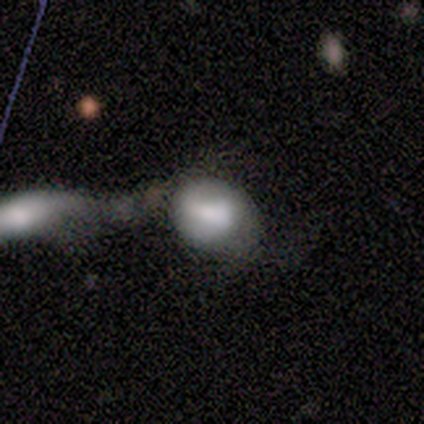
smooth 40% (tied), featured or disk 40% (tied), star or artifact 20%. Down the decision tree: how rounded — in between (100%); merging — merger (50%).